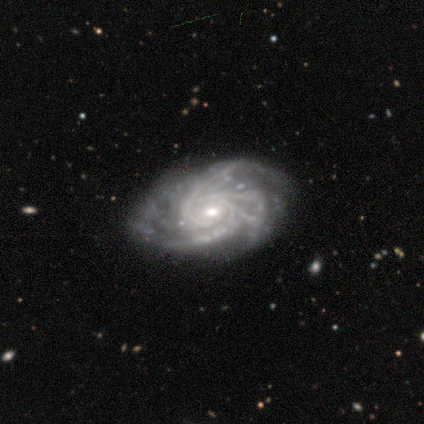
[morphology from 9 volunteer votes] Smooth or featured: featured or disk — 100%
Edge-on disk: no — 100%
Bar: no — 78% (strong — 11%)
Spiral arms: yes — 100%
Spiral winding: tight — 89% (medium — 11%)
Spiral arm count: 3 — 67% (more than 4 — 22%)
Bulge size: small — 67% (moderate — 33%)
Merging: none — 89% (minor disturbance — 11%)